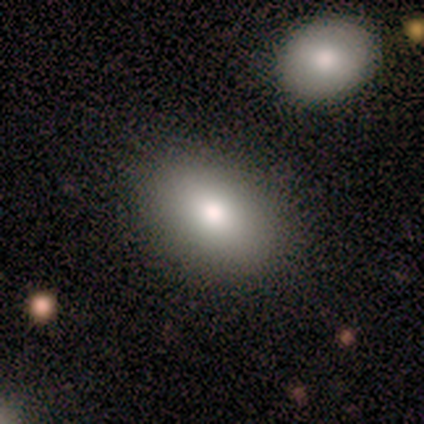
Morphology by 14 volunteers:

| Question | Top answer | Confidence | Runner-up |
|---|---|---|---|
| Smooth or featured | smooth | 79% | star or artifact (14%) |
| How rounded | in between | 91% | round (9%) |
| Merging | none | 83% | minor disturbance (8%) |